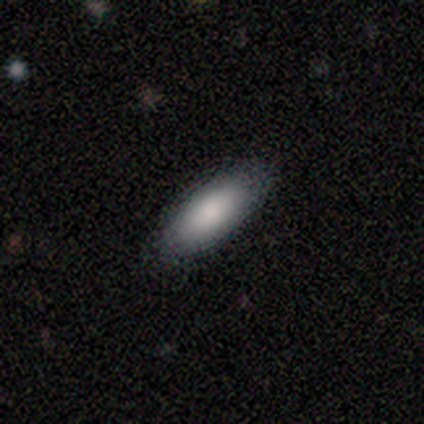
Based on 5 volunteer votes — Morphology: type=smooth (100%); roundness=in between (100%); merging=none (60%).